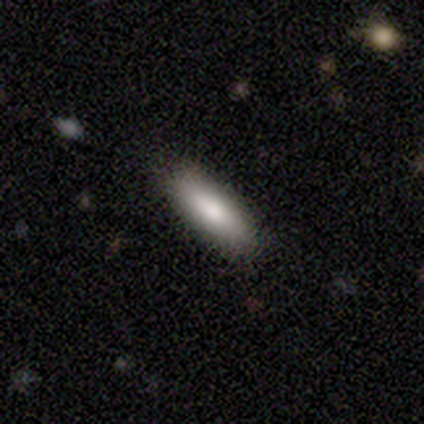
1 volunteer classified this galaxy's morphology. This appears to be a smooth galaxy with no disk features (100%) that is cigar-shaped (100%). Merging: minor disturbance (100%).